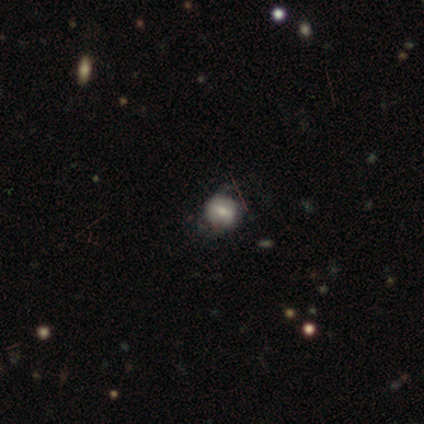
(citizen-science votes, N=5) featured or disk 60%, smooth 40%, star or artifact 0%. Down the decision tree: edge-on disk — no (100%); bar — weak (67%); spiral arms — no (67%); bulge size — small (67%); merging — none (40%, tied with minor disturbance).